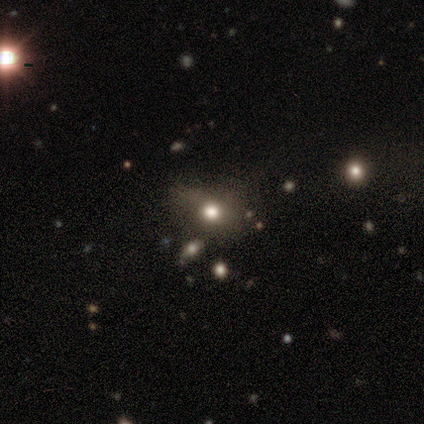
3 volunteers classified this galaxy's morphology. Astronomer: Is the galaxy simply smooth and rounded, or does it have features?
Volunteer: smooth — 33%, tied with featured or disk and star or artifact at 33%.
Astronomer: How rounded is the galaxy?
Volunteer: in between — 100%.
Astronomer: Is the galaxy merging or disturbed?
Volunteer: minor disturbance — 50%, tied with merger at 50%.